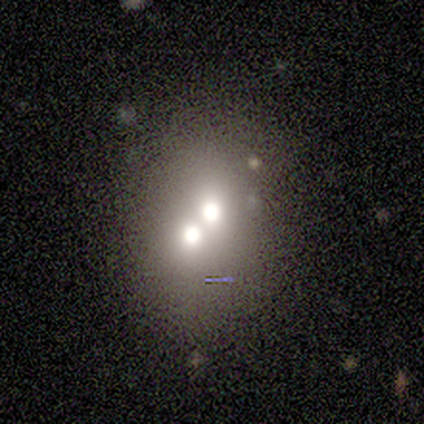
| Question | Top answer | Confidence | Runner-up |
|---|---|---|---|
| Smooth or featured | smooth | 100% | — |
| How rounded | round | 60% | in between (40%) |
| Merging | merger | 100% | — |